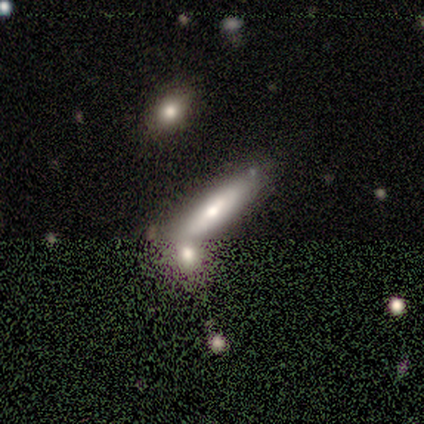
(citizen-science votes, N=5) Smooth or featured?
  - featured or disk: 40% * (tied)
  - star or artifact: 40% * (tied)
  - smooth: 20%
Edge-on disk?
  - yes: 50% * (tied)
  - no: 50% * (tied)
Edge-on bulge?
  - rounded: 100% *
  - boxy: 0%
  - none: 0%
Merging?
  - none: 67% *
  - minor disturbance: 33%
  - major disturbance: 0%
  - merger: 0%